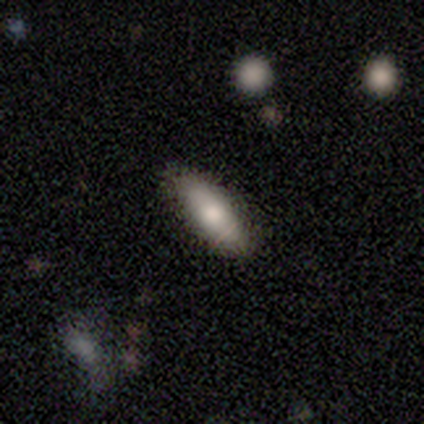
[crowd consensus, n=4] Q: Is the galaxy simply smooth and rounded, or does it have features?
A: smooth — 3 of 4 (75%).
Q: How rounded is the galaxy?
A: in between — 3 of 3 (100%).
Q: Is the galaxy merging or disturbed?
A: none — 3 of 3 (100%).